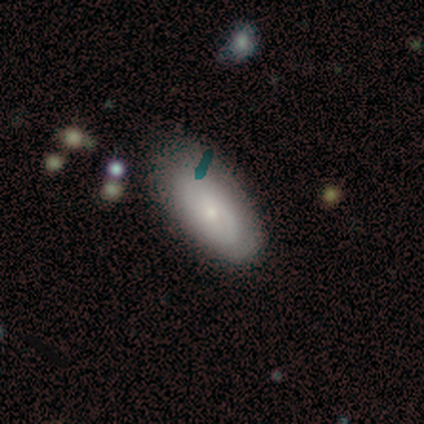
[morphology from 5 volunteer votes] Volunteers were most divided on "spiral winding" (3-way tie): tight: 33%, medium: 33%, loose: 33%; "spiral arm count" (3-way tie): 1: 33%, 2: 33%, more than 4: 33%, 3: 0%, 4: 0%, can't tell: 0%. More confident: edge-on disk — no (100%); smooth or featured — featured or disk (80%); bar — no (75%); spiral arms — yes (75%); bulge size — small (75%); merging — none (60%).